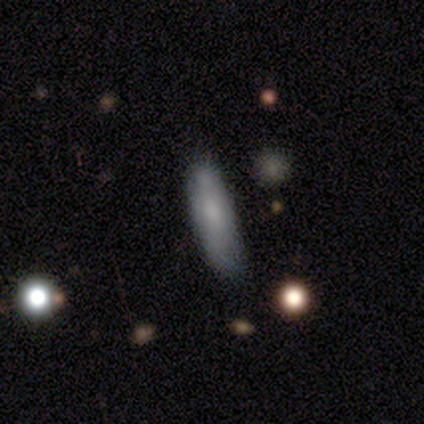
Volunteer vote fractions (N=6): This appears to be a smooth galaxy with no disk features (83%) that is in between round and cigar-shaped (60%). Merging: none (67%).